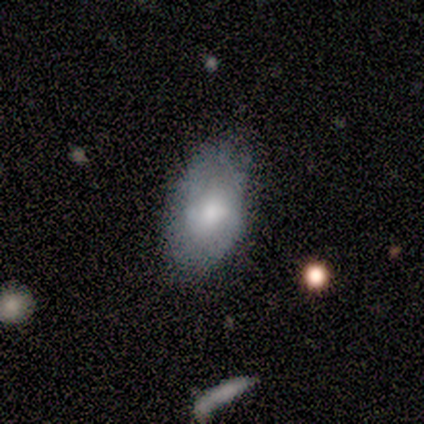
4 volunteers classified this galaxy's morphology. Smooth or featured? 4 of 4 (100%) said featured or disk. Edge-on disk? 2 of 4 (50%, tied with no) said yes. Edge-on bulge? 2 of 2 (100%) said rounded. Merging? 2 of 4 (50%, tied with minor disturbance) said none.